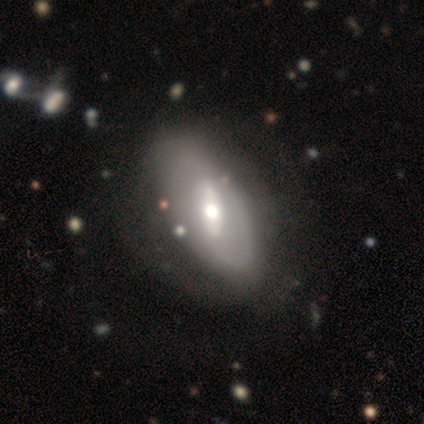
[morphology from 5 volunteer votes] Smooth or featured? 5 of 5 (100%) said featured or disk. Edge-on disk? 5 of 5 (100%) said no. Bar? 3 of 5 (60%) said weak. Spiral arms? 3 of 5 (60%) said yes. Spiral winding? 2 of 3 (67%) said loose. Spiral arm count? 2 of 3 (67%) said 2. Bulge size? 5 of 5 (100%) said moderate. Merging? 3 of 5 (60%) said none.